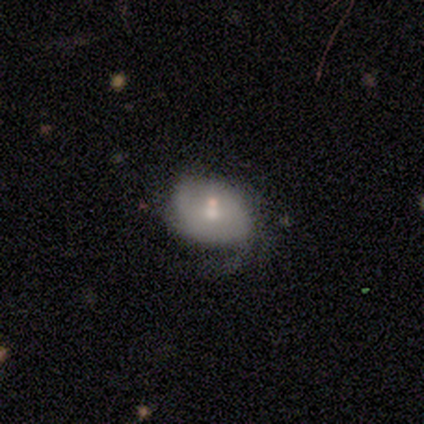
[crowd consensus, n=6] Smooth or featured? 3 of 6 (50%, tied with featured or disk) said smooth. How rounded? 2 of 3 (67%) said in between. Merging? 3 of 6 (50%) said none.